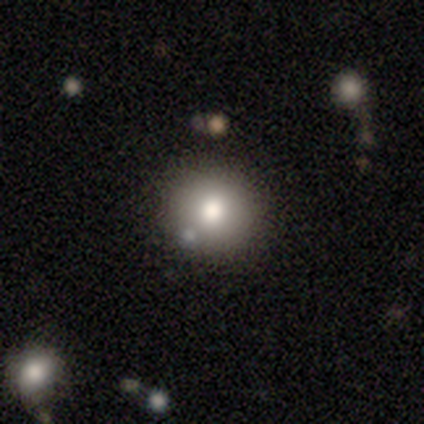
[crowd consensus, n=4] This is likely a smooth galaxy (75%). How rounded: likely in between (67%). Merging: clearly none (100%).